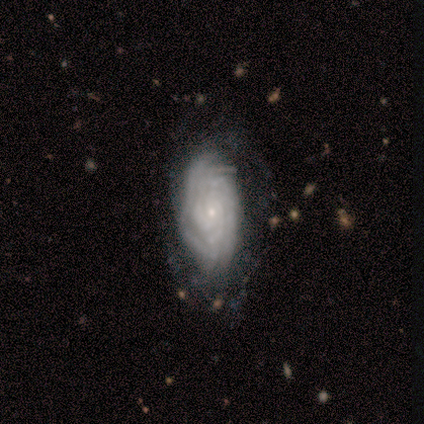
A featured or disk galaxy (88%) with no bar (79%), tight (90%) spiral arms (100%) and a small central bulge (88%). Merging: none (58%).